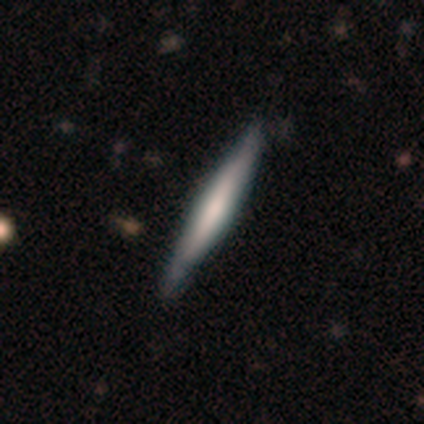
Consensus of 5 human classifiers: Volunteers were most divided on "smooth or featured": smooth: 60%, featured or disk: 40%, star or artifact: 0%. More confident: how rounded — cigar-shaped (100%); merging — none (100%).